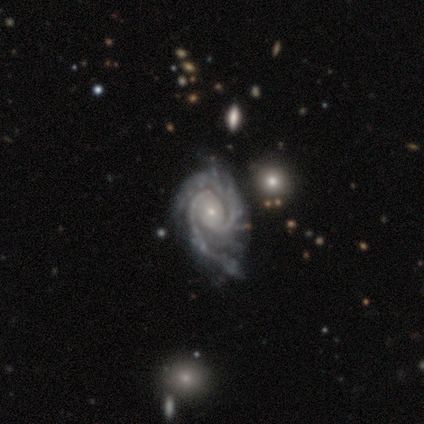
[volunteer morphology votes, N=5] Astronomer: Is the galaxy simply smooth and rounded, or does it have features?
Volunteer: featured or disk — 100%.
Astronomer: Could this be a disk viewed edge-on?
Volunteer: no — 100%.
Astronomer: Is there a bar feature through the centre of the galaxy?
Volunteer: no — 80%.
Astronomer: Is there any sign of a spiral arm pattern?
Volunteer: yes — 100%.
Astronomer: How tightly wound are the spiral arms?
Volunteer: tight — 100%.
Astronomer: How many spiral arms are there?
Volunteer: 2 — 60%.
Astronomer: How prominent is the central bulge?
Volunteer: small — 100%.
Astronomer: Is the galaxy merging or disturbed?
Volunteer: minor disturbance — 60%.